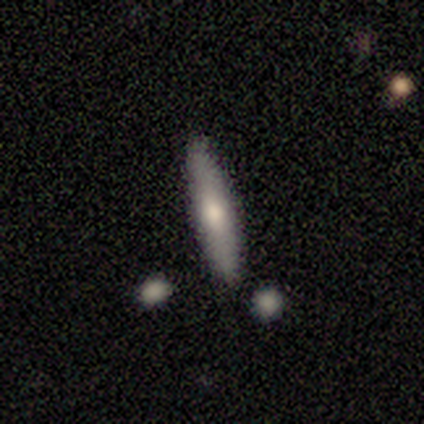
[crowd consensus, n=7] Q: Smooth or featured?
A: smooth (71%); runner-up: featured or disk (29%)
Q: How rounded?
A: cigar-shaped (100%)
Q: Merging?
A: none (71%); runner-up: minor disturbance (29%)